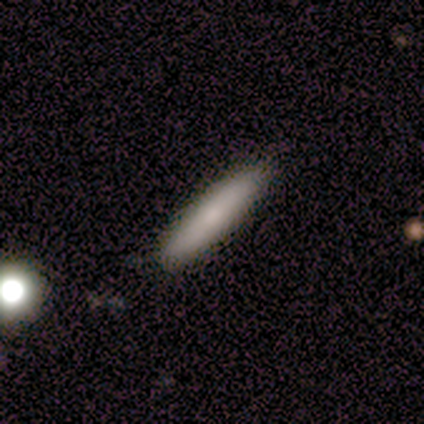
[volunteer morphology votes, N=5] smooth-or-featured: smooth: 60% | featured or disk: 40% | star or artifact: 0%
  how-rounded: cigar-shaped: 100% | round: 0% | in between: 0%
  merging: none: 100% | minor disturbance: 0% | major disturbance: 0% | merger: 0%